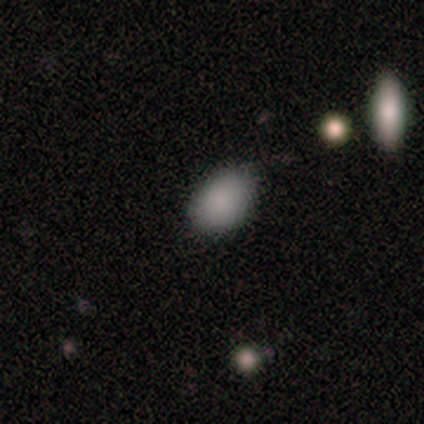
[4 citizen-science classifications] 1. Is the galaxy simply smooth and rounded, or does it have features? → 100% smooth, 0% featured or disk, 0% star or artifact.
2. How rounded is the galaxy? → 75% in between, 25% round, 0% cigar-shaped.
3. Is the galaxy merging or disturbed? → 75% none, 25% minor disturbance, 0% major disturbance, 0% merger.